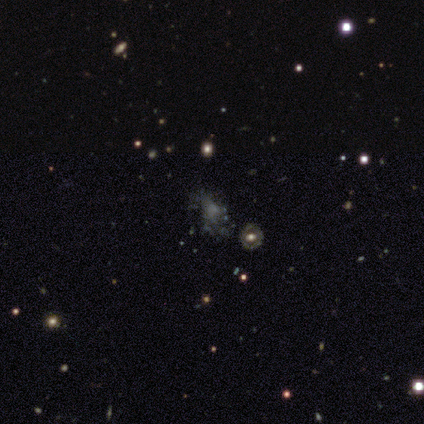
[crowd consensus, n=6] smooth_or_featured: smooth (p=0.50) [alt: featured or disk p=0.33]
how_rounded: round (p=0.33) [tied with: in between p=0.33, cigar-shaped p=0.33]
merging: none (p=0.60) [alt: minor disturbance p=0.40]